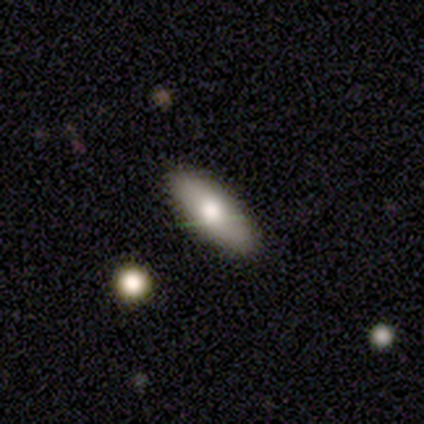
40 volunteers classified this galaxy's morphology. smooth 72%, featured or disk 15%, star or artifact 12%. Down the decision tree: how rounded — in between (66%); merging — none (97%).